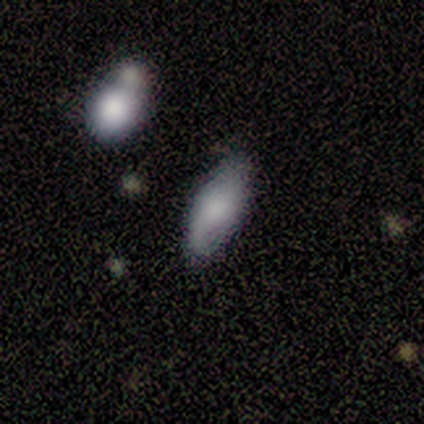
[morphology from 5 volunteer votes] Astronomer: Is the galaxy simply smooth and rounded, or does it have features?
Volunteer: featured or disk — 60% (runner-up: smooth, 40%).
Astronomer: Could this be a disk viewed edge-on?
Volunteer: yes — 67%.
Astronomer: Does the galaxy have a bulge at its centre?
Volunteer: none — 50%, tied with rounded at 50%.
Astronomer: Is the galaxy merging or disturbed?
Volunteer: none — 80%.